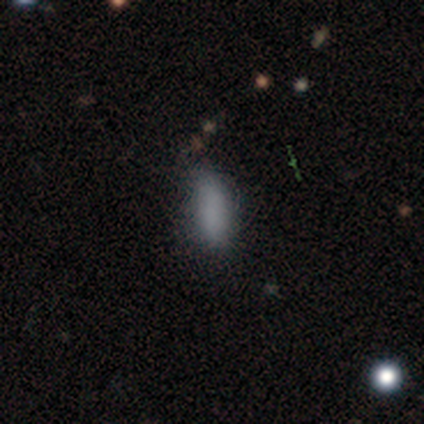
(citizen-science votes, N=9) smooth-or-featured: smooth: 78% | featured or disk: 22% | star or artifact: 0%
  how-rounded: in between: 71% | cigar-shaped: 29% | round: 0%
  merging: none: 56% | minor disturbance: 44% | major disturbance: 0% | merger: 0%